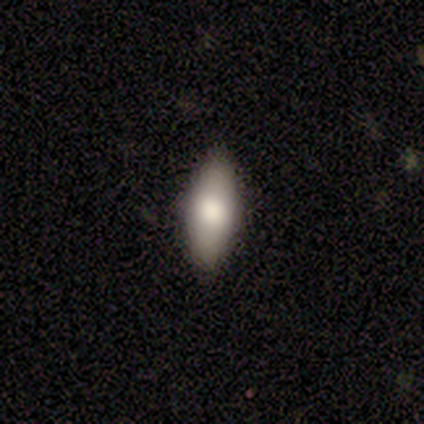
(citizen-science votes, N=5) Q: Smooth or featured?
A: smooth (60%); runner-up: featured or disk (40%)
Q: How rounded?
A: in between (67%); runner-up: cigar-shaped (33%)
Q: Merging?
A: none (80%); runner-up: merger (20%)